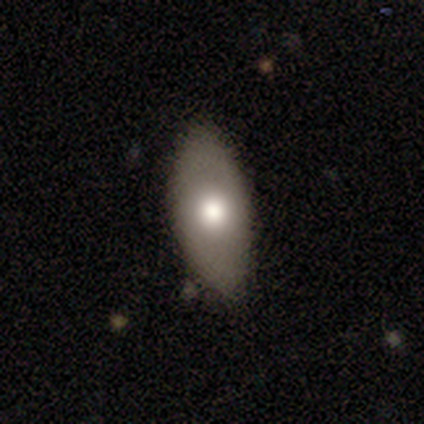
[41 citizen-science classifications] Morphology: type=smooth (66%); roundness=in between (96%); merging=none (79%).